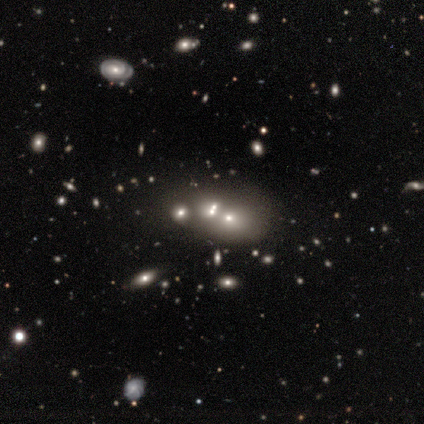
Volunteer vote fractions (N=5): Smooth or featured: featured or disk — 60% (smooth — 20%)
Edge-on disk: no — 100%
Bar: no — 67% (weak — 33%)
Spiral arms: no — 67% (yes — 33%)
Bulge size: large — 33% (tied with moderate — 33%; small — 33%)
Merging: none — 50% (minor disturbance — 25%)